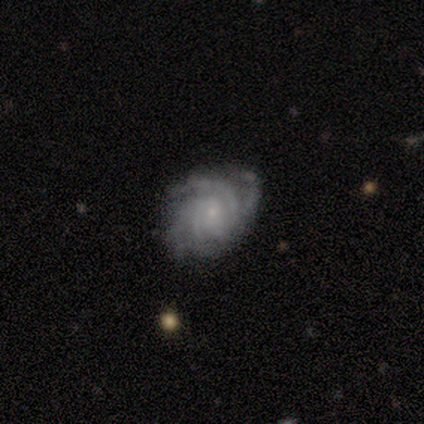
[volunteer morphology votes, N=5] Volunteers were most divided on "bar" (2-way tie): weak: 50%, no: 50%, strong: 0%; "spiral arm count" (2-way tie): 4: 50%, can't tell: 50%, 1: 0%, 2: 0%, 3: 0%, more than 4: 0%; "merging" (2-way tie): none: 50%, minor disturbance: 50%, major disturbance: 0%, merger: 0%. More confident: edge-on disk — no (100%); spiral arms — yes (100%); spiral winding — tight (100%); bulge size — small (100%); smooth or featured — featured or disk (80%).